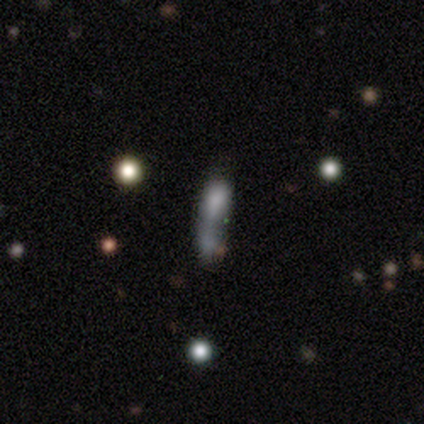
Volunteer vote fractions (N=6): smooth_or_featured: smooth (p=0.67) [alt: featured or disk p=0.33]
how_rounded: in between (p=0.50) [tied with: cigar-shaped p=0.50]
merging: merger (p=0.50) [alt: none p=0.17]